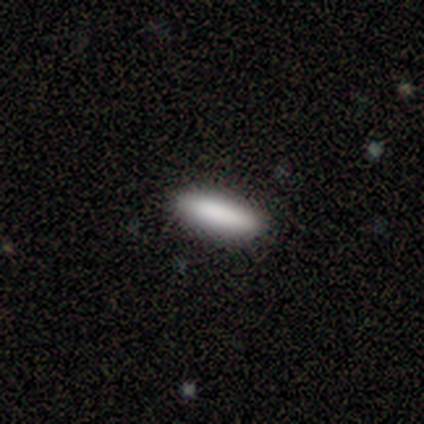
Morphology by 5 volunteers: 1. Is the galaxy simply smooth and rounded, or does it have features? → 100% smooth, 0% featured or disk, 0% star or artifact.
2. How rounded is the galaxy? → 100% cigar-shaped, 0% round, 0% in between.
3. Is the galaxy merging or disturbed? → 100% none, 0% minor disturbance, 0% major disturbance, 0% merger.